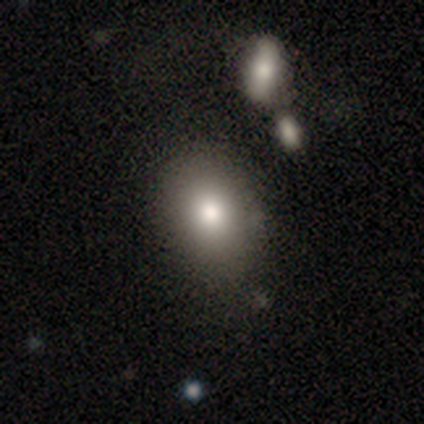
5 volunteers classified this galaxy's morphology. Smooth or featured?
  - smooth: 80% *
  - featured or disk: 20%
  - star or artifact: 0%
How rounded?
  - round: 50% * (tied)
  - in between: 50% * (tied)
  - cigar-shaped: 0%
Merging?
  - none: 80% *
  - merger: 20%
  - minor disturbance: 0%
  - major disturbance: 0%